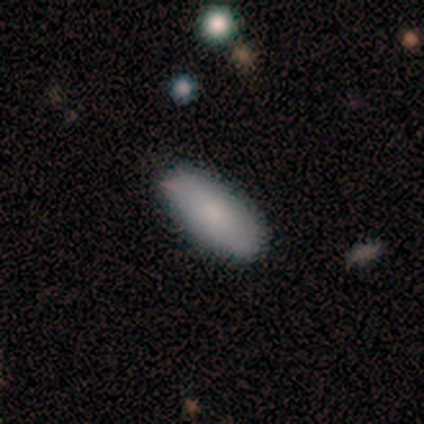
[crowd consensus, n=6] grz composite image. It shows a smooth galaxy with no disk features (67%) that is in between round and cigar-shaped (100%). Merging: none (80%).